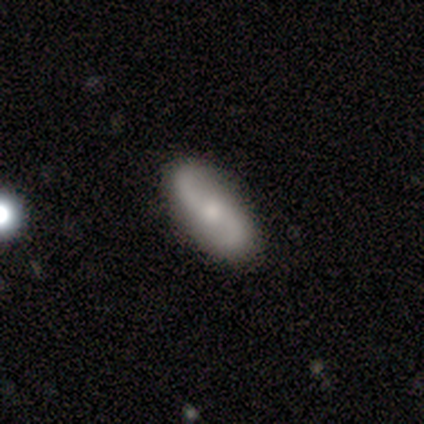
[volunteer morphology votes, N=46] This appears to be a featured or disk galaxy (72%) with no bar (58%), 2 (93%) loose (86%) spiral arms (94%) and a small central bulge (61%). Merging: none (80%).